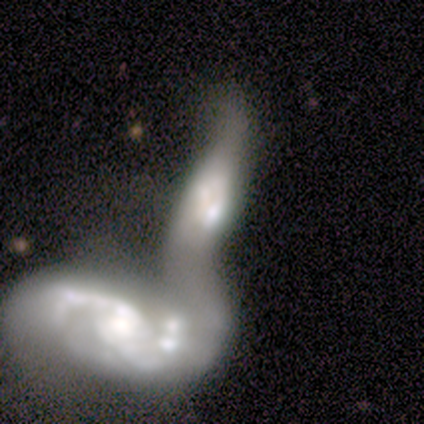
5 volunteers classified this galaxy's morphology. Smooth or featured? smooth (40%, tied with star or artifact)
How rounded? in between (100%)
Merging? merger (100%)